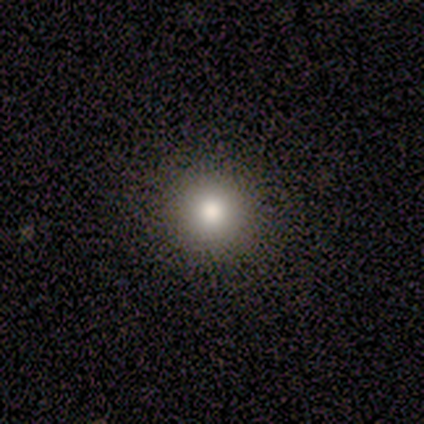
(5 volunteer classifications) Overall: smooth (80%). How rounded: round (100%). Merging: none (100%).